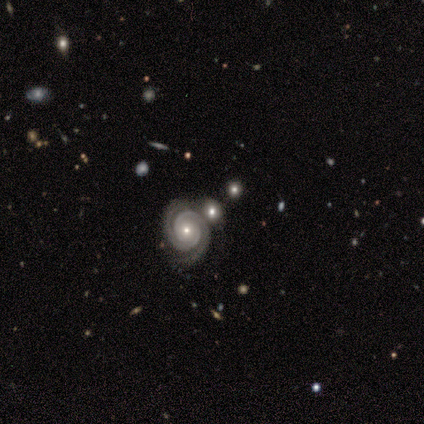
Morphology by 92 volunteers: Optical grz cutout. It shows a featured or disk galaxy (73%) with no bar (82%), 2 (88%) tight (90%) spiral arms (89%) and a small central bulge (48%). Merging: none (59%).